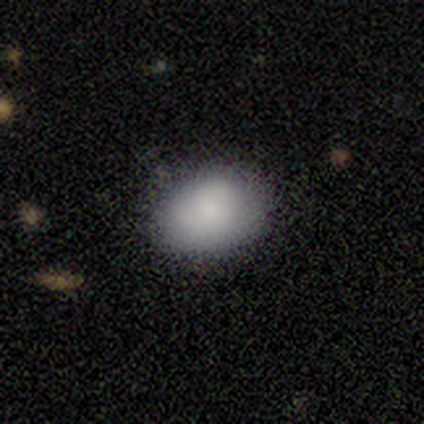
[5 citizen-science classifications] This is clearly a smooth galaxy (80%). How rounded: clearly in between (100%). Merging: possibly none (50%).